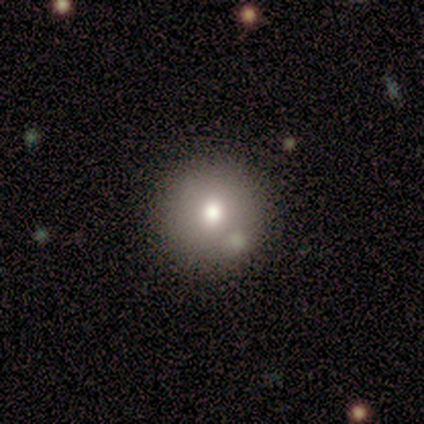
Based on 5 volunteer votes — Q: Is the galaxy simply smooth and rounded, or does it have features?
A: smooth — 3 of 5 (60%).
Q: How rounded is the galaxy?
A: round — 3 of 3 (100%).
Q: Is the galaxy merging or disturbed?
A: none — 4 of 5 (80%).